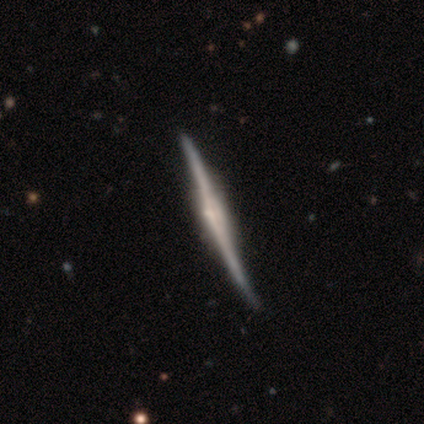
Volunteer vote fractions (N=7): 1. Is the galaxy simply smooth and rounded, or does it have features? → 86% featured or disk, 14% smooth, 0% star or artifact.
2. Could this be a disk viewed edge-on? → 100% yes, 0% no.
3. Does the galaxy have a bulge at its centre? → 50% rounded, 33% none, 17% boxy.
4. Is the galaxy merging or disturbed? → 43% none (tied), 43% minor disturbance (tied), 14% major disturbance, 0% merger.